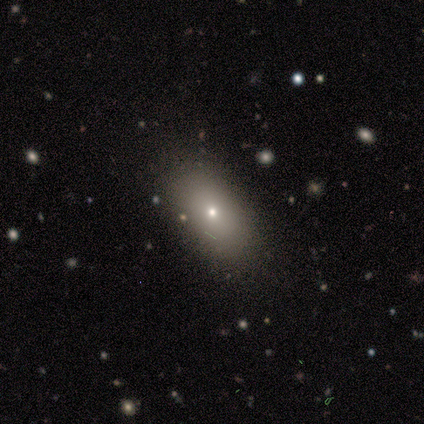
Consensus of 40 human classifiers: Volunteers were most divided on "smooth or featured": smooth: 60%, star or artifact: 25%, featured or disk: 15%. More confident: how rounded — in between (92%); merging — none (90%).